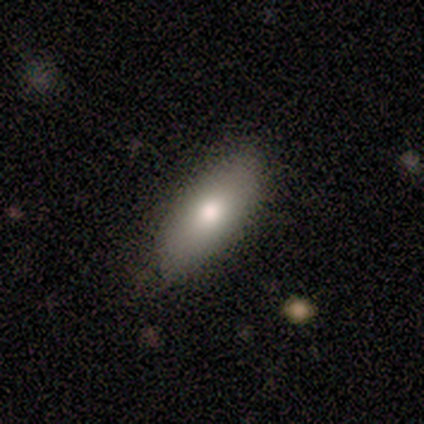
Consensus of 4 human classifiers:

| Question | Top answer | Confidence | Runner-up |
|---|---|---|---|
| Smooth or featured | smooth | 50% | tied: featured or disk (50%) |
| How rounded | in between | 100% | — |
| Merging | none | 75% | minor disturbance (25%) |